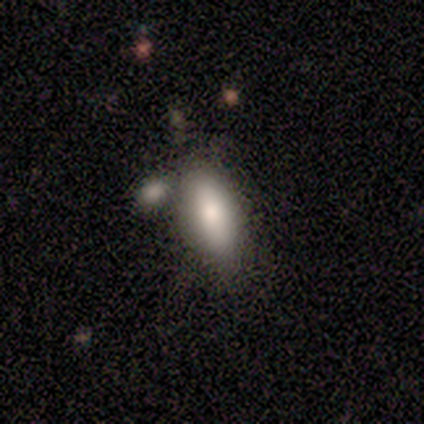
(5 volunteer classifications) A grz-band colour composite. It shows a smooth galaxy with no disk features (80%) that is in between round and cigar-shaped (100%). Merging: none (60%).